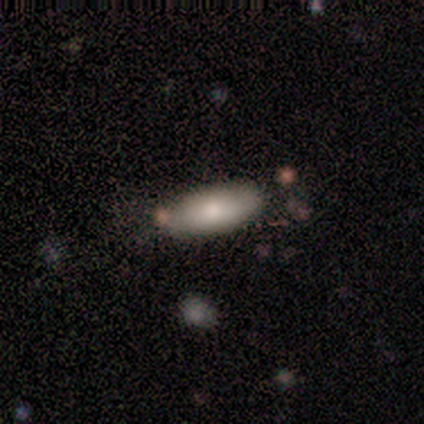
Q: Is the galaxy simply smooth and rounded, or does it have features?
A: smooth — 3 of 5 (60%).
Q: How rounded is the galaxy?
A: in between — 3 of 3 (100%).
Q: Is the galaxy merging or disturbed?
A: none — 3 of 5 (60%).